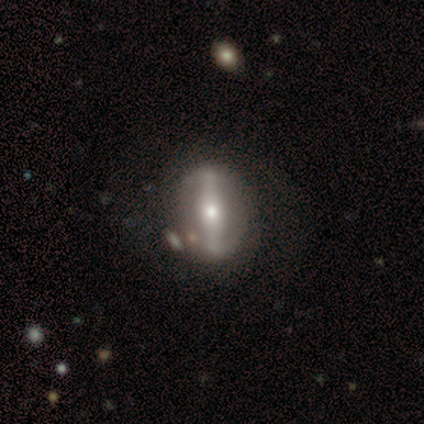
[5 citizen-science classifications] Q: Smooth or featured?
A: featured or disk (80%); runner-up: star or artifact (20%)
Q: Edge-on disk?
A: no (75%); runner-up: yes (25%)
Q: Bar?
A: strong (100%)
Q: Spiral arms?
A: yes (67%); runner-up: no (33%)
Q: Spiral winding?
A: tight (50%); tied with: medium (50%)
Q: Spiral arm count?
A: 2 (100%)
Q: Bulge size?
A: large (67%); runner-up: moderate (33%)
Q: Merging?
A: none (75%); runner-up: minor disturbance (25%)